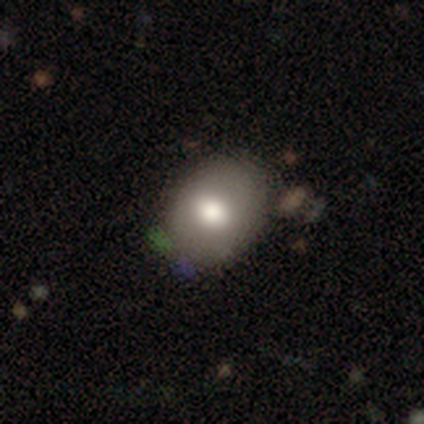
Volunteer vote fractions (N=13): A smooth galaxy with no disk features (77%) that is in between round and cigar-shaped (60%).

Vote fractions:
- Smooth or featured? smooth: 77% / featured or disk: 15% / star or artifact: 8%
- How rounded? in between: 60% / round: 40% / cigar-shaped: 0%
- Merging? none: 67% / minor disturbance: 33% / major disturbance: 0% / merger: 0%